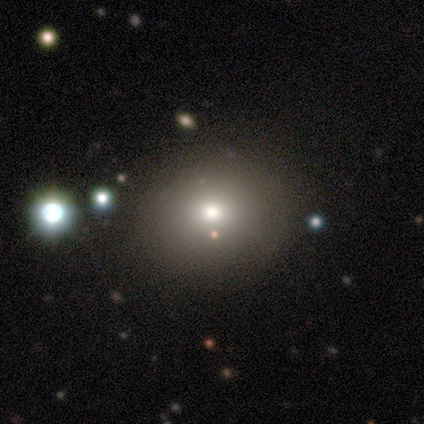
A smooth galaxy with no disk features (65%) that is round (77%).

Vote fractions:
- Smooth or featured? smooth: 65% / star or artifact: 22% / featured or disk: 12%
- How rounded? round: 77% / in between: 23% / cigar-shaped: 0%
- Merging? none: 84% / minor disturbance: 13% / major disturbance: 3% / merger: 0%